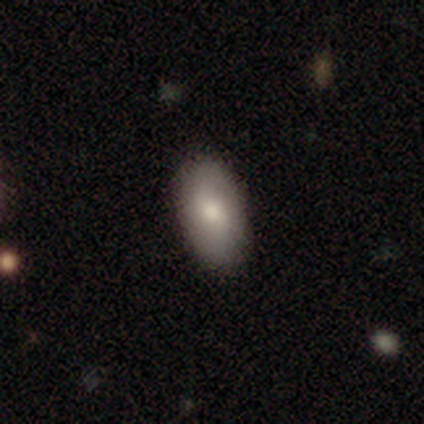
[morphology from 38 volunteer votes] Volunteers were most divided on "smooth or featured": smooth: 66%, featured or disk: 24%, star or artifact: 11%. More confident: merging — none (97%); how rounded — in between (92%).